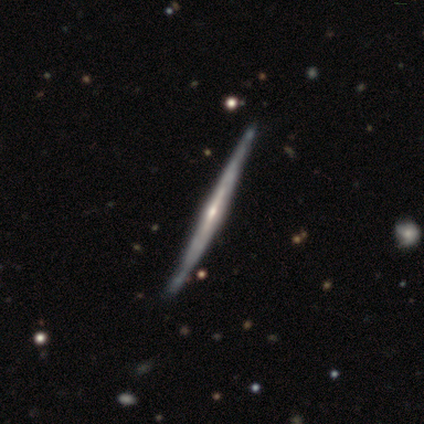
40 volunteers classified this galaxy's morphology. Smooth or featured: featured or disk — 90% (smooth — 5%)
Edge-on disk: yes — 97% (no — 3%)
Edge-on bulge: rounded — 77% (boxy — 11%)
Merging: none — 63% (minor disturbance — 11%)